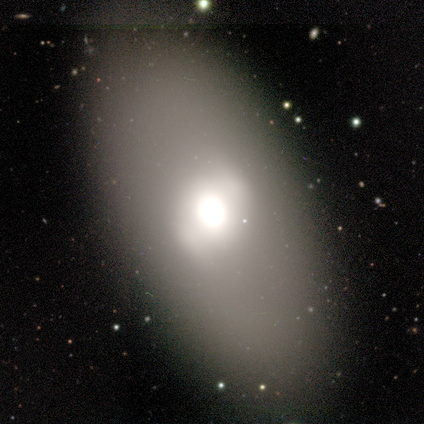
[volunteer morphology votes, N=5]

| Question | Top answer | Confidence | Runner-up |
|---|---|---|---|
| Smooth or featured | featured or disk | 60% | smooth (40%) |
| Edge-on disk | no | 100% | — |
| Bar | no | 67% | strong (33%) |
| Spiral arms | no | 100% | — |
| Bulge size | large | 67% | moderate (33%) |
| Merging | none | 100% | — |